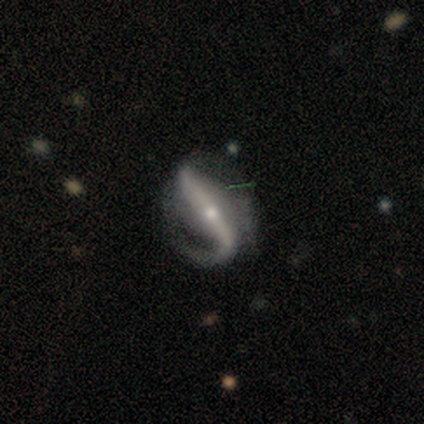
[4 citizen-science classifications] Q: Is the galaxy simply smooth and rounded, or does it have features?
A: featured or disk — 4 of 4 (100%).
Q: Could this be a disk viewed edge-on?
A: yes — 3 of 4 (75%).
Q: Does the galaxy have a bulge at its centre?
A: rounded — 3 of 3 (100%).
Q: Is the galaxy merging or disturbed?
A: major disturbance — 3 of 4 (75%).